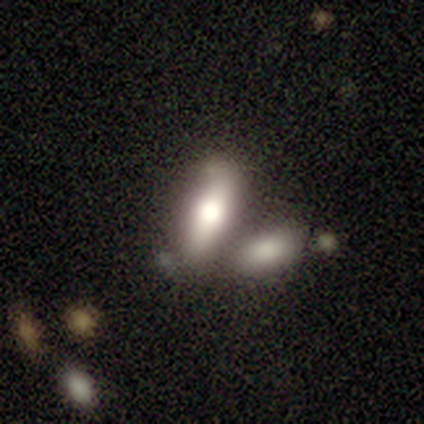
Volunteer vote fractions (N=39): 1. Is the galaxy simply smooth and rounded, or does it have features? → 79% smooth, 18% featured or disk, 3% star or artifact.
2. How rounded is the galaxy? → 71% in between, 26% cigar-shaped, 3% round.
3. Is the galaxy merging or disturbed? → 45% merger, 34% none, 13% minor disturbance, 8% major disturbance.